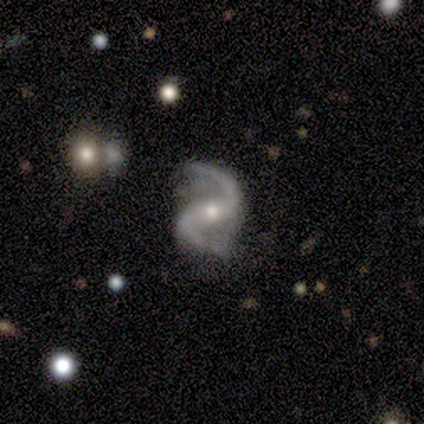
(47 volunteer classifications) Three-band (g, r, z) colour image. It shows a featured or disk galaxy (96%) with a strong bar (39%, tied with weak), 2 (100%) loose (70%) spiral arms (100%) and a moderate central bulge (73%). Merging: none (87%).